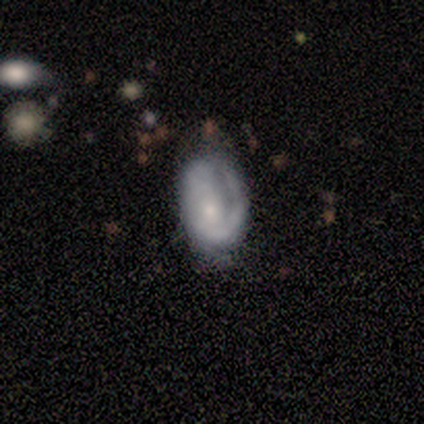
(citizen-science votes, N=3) smooth 67%, featured or disk 33%, star or artifact 0%. Down the decision tree: how rounded — in between (100%); merging — none (33%, tied with minor disturbance and major disturbance).